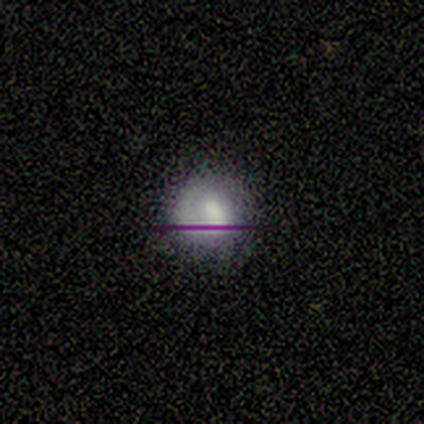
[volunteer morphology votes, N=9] smooth_or_featured: smooth (p=0.33) [tied with: featured or disk p=0.33, star or artifact p=0.33]
how_rounded: round (p=1.00)
merging: none (p=0.50) [alt: major disturbance p=0.33]